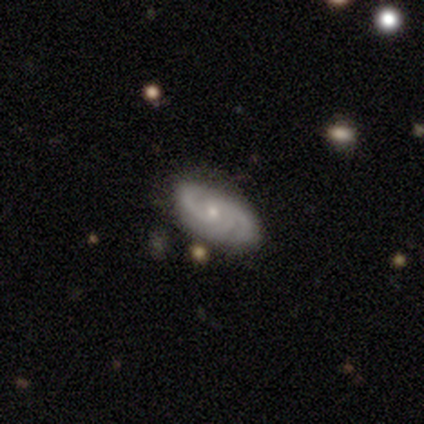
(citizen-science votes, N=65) Overall: featured or disk (83%). Edge-on disk: no (96%). Bar: no (65%; weak 35%). Spiral arms: yes (96%). Spiral arm count: 3 (58%; 2 30%). Spiral winding: tight (66%; medium 28%). Bulge size: small (65%; moderate 35%). Merging: none (82%).